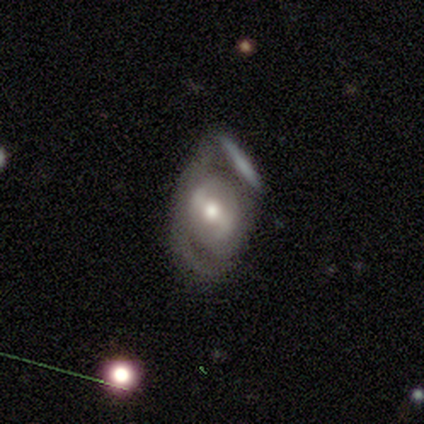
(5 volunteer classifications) Smooth or featured: featured or disk — 60% (smooth — 40%)
Edge-on disk: no — 100%
Bar: strong — 100%
Spiral arms: yes — 100%
Spiral winding: tight — 67% (medium — 33%)
Spiral arm count: 1 — 33% (tied with 2 — 33%; can't tell — 33%)
Bulge size: moderate — 67% (small — 33%)
Merging: none — 60% (major disturbance — 20%)